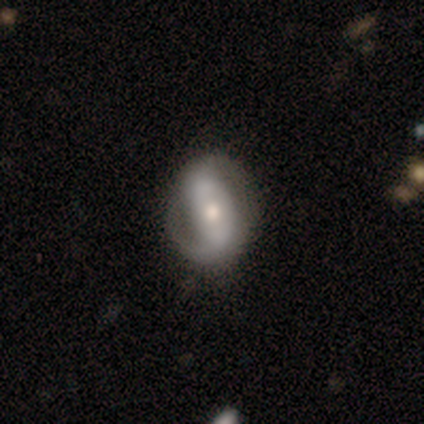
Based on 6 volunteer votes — A featured or disk galaxy (100%) with no bar (67%), 2 (75%) medium (50%) spiral arms (67%) and a moderate central bulge (67%). Merging: none (83%).